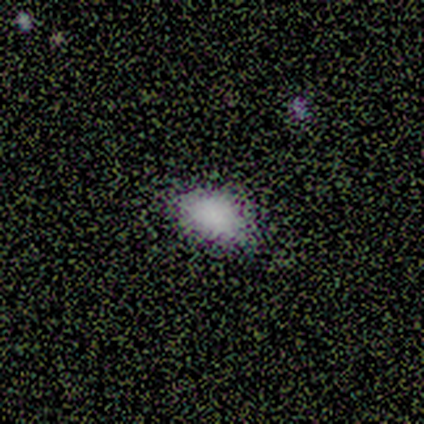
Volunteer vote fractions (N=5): Morphology: type=smooth (80%); roundness=in between (75%); merging=none (80%).